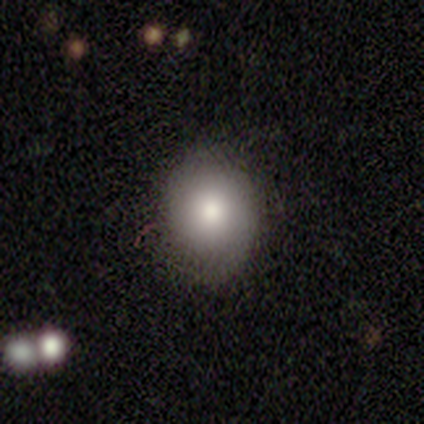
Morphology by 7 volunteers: Overall: smooth (71%). How rounded: in between (80%). Merging: none (71%).